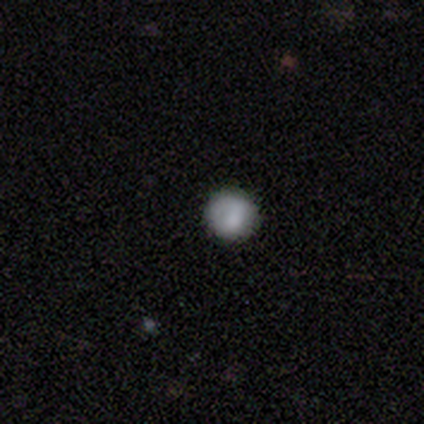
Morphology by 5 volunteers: This appears to be a smooth galaxy with no disk features (80%) that is round (100%). Merging: none (100%).